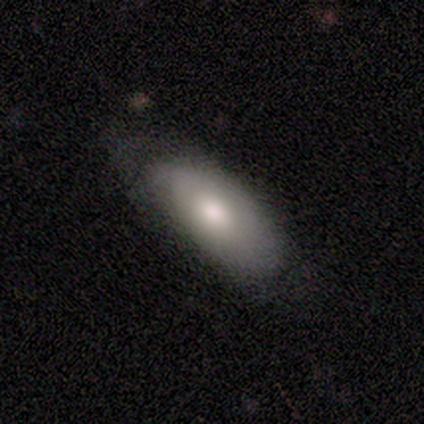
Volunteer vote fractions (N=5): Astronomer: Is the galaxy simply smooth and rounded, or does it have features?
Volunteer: smooth — 80%.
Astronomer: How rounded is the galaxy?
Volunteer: in between — 100%.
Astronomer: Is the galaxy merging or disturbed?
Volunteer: minor disturbance — 60%.